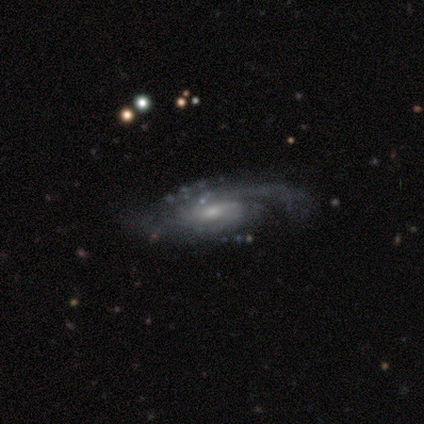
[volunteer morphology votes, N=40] Volunteers were most divided on "spiral arm count": can't tell: 41%, 2: 29%, 3: 21%, 1: 6%, 4: 3%, more than 4: 0%. More confident: edge-on disk — no (97%); spiral arms — yes (94%); smooth or featured — featured or disk (92%); merging — none (69%); bar — no (58%); spiral winding — medium (53%); bulge size — small (53%).